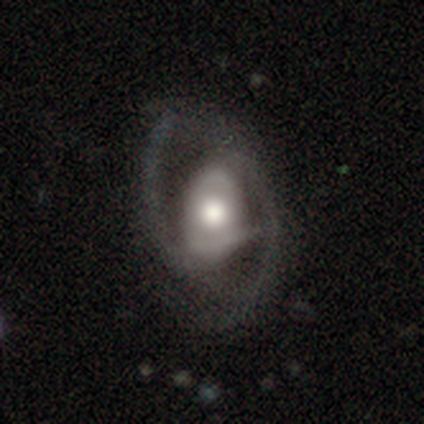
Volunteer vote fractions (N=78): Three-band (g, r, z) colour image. It shows a featured or disk galaxy (88%) with no bar (57%), 2 (95%) medium (50%) spiral arms (91%) and a moderate central bulge (53%). Merging: none (34%).